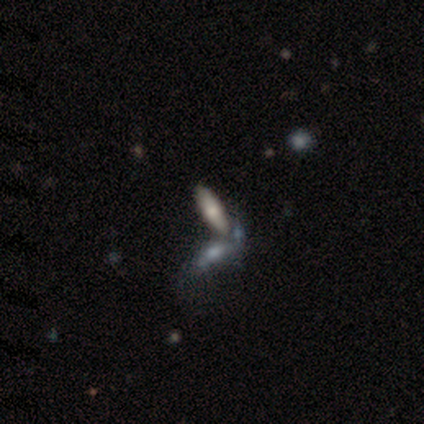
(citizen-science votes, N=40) Volunteers were most divided on "merging": merger: 53%, none: 31%, minor disturbance: 11%, major disturbance: 6%. More confident: how rounded — in between (62%); smooth or featured — smooth (60%).